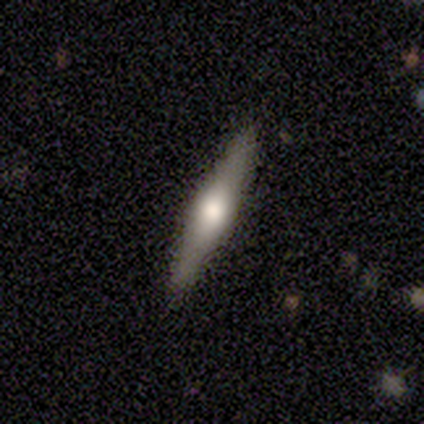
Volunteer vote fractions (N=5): featured or disk 60%, smooth 20%, star or artifact 20%. Down the decision tree: edge-on disk — yes (67%); edge-on bulge — boxy (50%, tied with rounded); merging — none (75%).